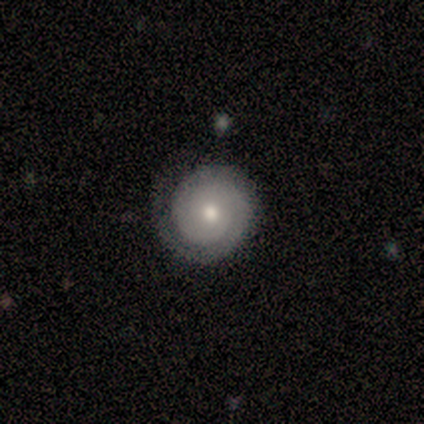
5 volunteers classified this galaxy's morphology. A featured or disk galaxy (80%) with a weak bar (50%, tied with no), 1 (75%) tight (75%) spiral arms (100%) and a moderate central bulge (50%, tied with small). Merging: none (75%).